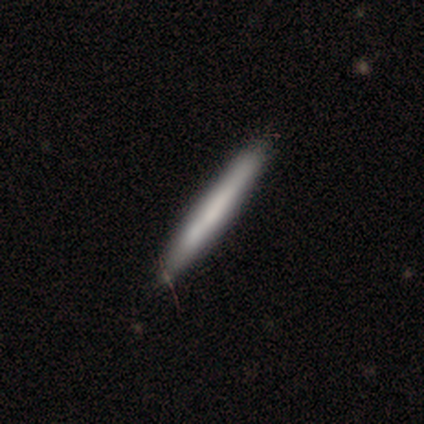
Morphology: type=smooth (59%); roundness=cigar-shaped (96%); merging=none (80%).